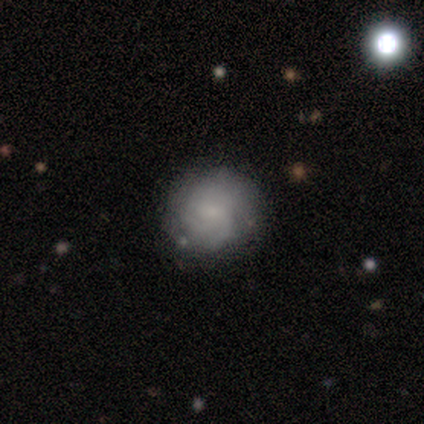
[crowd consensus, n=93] featured or disk 56%, smooth 39%, star or artifact 5%. Down the decision tree: edge-on disk — no (100%); bar — no (60%); spiral arms — yes (94%); spiral arm count — can't tell (47%); spiral winding — tight (57%); bulge size — small (65%); merging — none (82%).